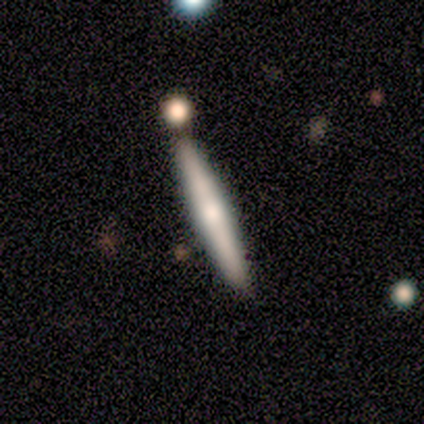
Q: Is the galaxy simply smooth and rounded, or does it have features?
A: smooth — 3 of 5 (60%).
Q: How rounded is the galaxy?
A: cigar-shaped — 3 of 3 (100%).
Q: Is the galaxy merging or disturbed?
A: none — 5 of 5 (100%).